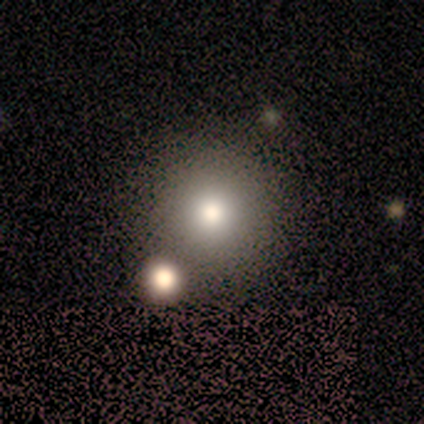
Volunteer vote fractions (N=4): Volunteers were most divided on "merging": none: 75%, merger: 25%, minor disturbance: 0%, major disturbance: 0%. More confident: smooth or featured — smooth (100%); how rounded — round (100%).